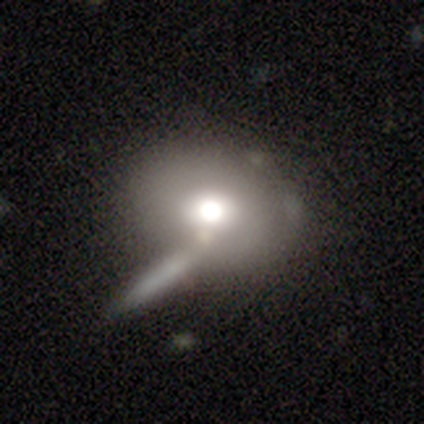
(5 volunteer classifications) Overall: smooth (100%). How rounded: in between (60%; round 40%). Merging: none (80%).